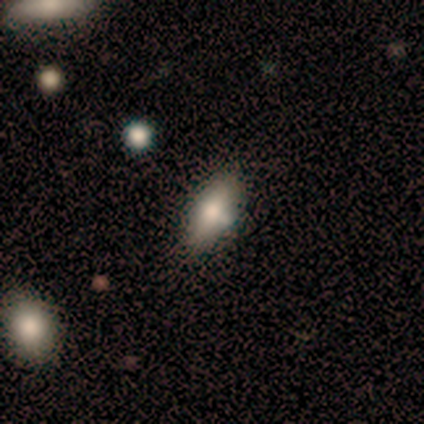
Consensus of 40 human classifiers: Q: Smooth or featured?
A: smooth (57%); runner-up: featured or disk (38%)
Q: How rounded?
A: in between (87%); runner-up: cigar-shaped (13%)
Q: Merging?
A: none (68%); runner-up: minor disturbance (24%)